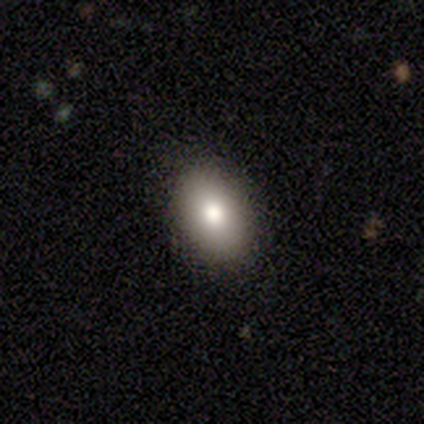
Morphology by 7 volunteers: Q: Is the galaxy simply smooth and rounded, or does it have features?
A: smooth — 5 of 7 (71%).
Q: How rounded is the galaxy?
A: in between — 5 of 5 (100%).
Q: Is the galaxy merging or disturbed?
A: none — 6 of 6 (100%).